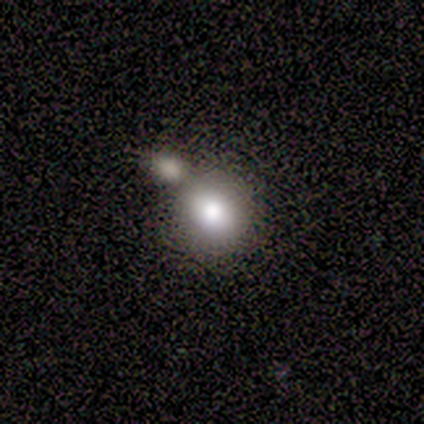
Overall: smooth (80%). How rounded: round (75%). Merging: merger (50%; none 25%).